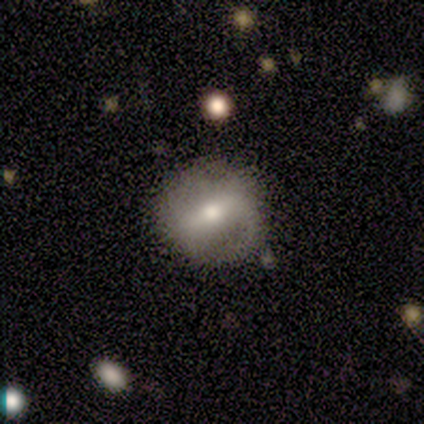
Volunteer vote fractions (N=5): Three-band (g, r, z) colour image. It shows a smooth galaxy with no disk features (40%, tied with featured or disk) that is round (100%). Merging: none (50%, tied with major disturbance).